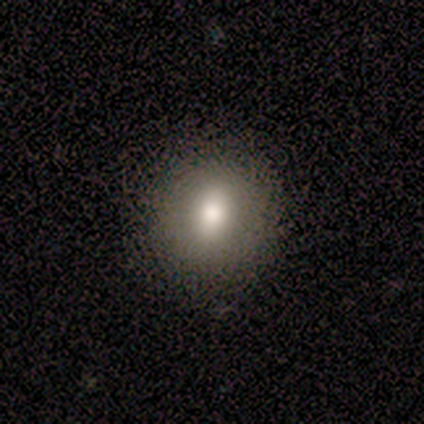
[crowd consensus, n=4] Overall: smooth (100%). How rounded: round (100%). Merging: none (100%).